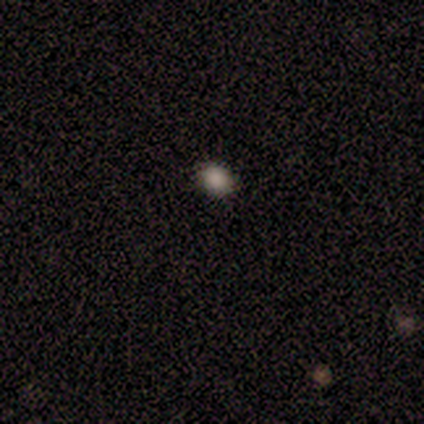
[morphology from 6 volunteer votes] Smooth or featured?
  - smooth: 100% *
  - featured or disk: 0%
  - star or artifact: 0%
How rounded?
  - round: 67% *
  - in between: 33%
  - cigar-shaped: 0%
Merging?
  - none: 100% *
  - minor disturbance: 0%
  - major disturbance: 0%
  - merger: 0%